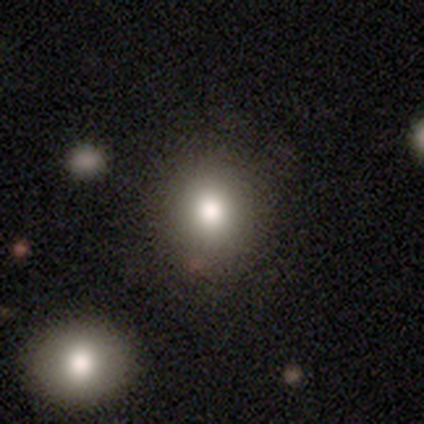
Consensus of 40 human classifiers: smooth-or-featured: smooth: 90% | featured or disk: 5% | star or artifact: 5%
  how-rounded: round: 89% | in between: 11% | cigar-shaped: 0%
  merging: none: 84% | minor disturbance: 13% | merger: 3% | major disturbance: 0%